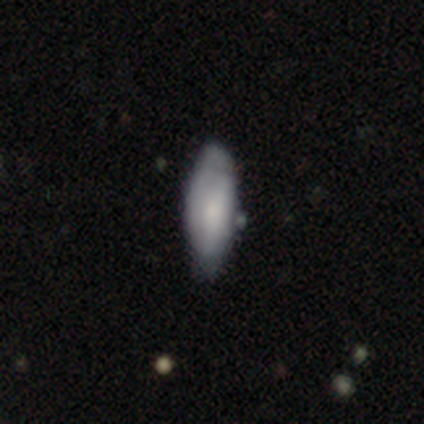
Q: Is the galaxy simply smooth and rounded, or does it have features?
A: smooth — 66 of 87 (76%).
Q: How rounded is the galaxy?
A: in between — 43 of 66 (65%).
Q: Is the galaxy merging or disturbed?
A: none — 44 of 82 (54%).